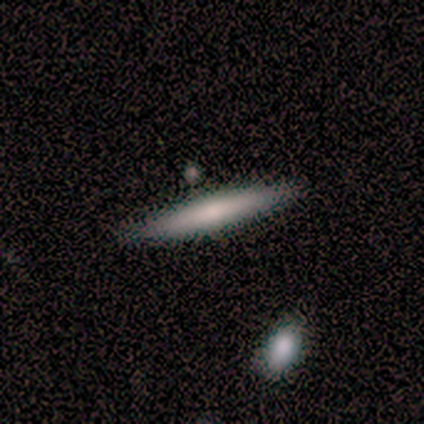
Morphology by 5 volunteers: Smooth or featured?
  - smooth: 60% *
  - featured or disk: 40%
  - star or artifact: 0%
How rounded?
  - cigar-shaped: 100% *
  - round: 0%
  - in between: 0%
Merging?
  - none: 80% *
  - minor disturbance: 20%
  - major disturbance: 0%
  - merger: 0%